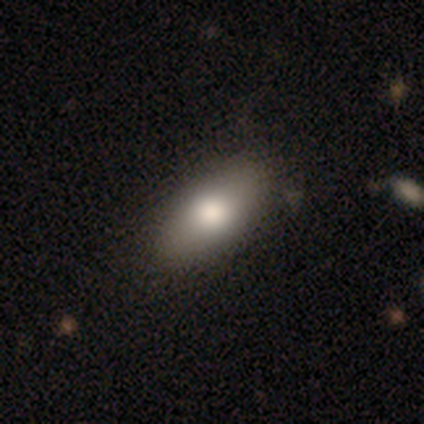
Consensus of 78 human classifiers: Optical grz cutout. It shows a smooth galaxy with no disk features (88%) that is in between round and cigar-shaped (90%). Merging: none (43%).